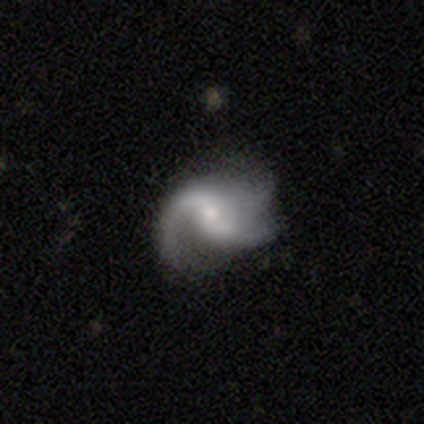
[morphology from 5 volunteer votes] Q: Smooth or featured?
A: featured or disk (100%)
Q: Edge-on disk?
A: no (100%)
Q: Bar?
A: weak (60%); runner-up: strong (40%)
Q: Spiral arms?
A: yes (100%)
Q: Spiral winding?
A: medium (60%); runner-up: loose (40%)
Q: Spiral arm count?
A: 2 (60%); runner-up: 1 (20%)
Q: Bulge size?
A: small (60%); runner-up: moderate (40%)
Q: Merging?
A: none (60%); runner-up: minor disturbance (40%)